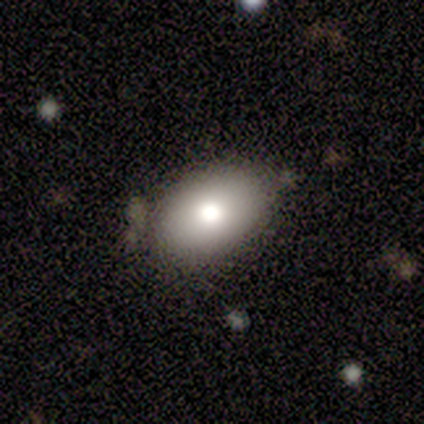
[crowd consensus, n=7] A smooth galaxy with no disk features (100%) that is in between round and cigar-shaped (100%).

Vote fractions:
- Smooth or featured? smooth: 100% / featured or disk: 0% / star or artifact: 0%
- How rounded? in between: 100% / round: 0% / cigar-shaped: 0%
- Merging? none: 100% / minor disturbance: 0% / major disturbance: 0% / merger: 0%